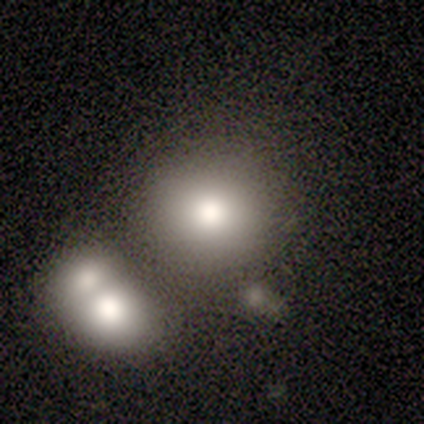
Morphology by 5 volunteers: A smooth galaxy with no disk features (100%) that is round (100%). Merging: none (80%).